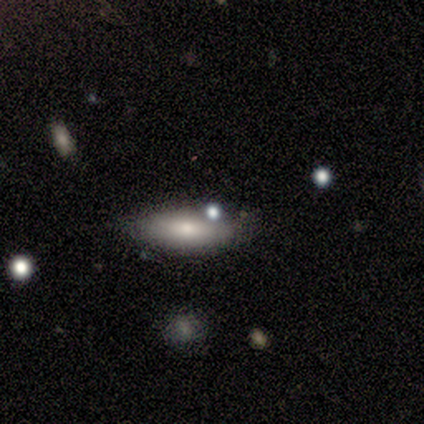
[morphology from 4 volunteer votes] type=featured or disk (75%); edge-on=yes (100%); edge-on bulge=rounded (100%); merging=none (100%).